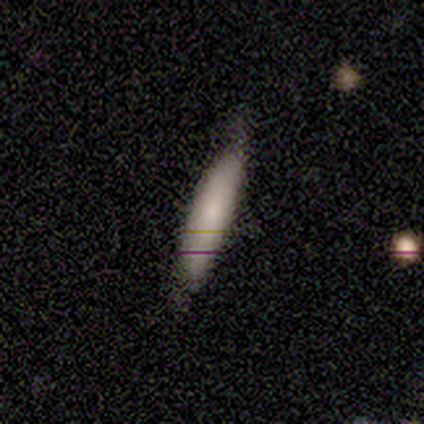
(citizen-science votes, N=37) smooth 84%, featured or disk 16%, star or artifact 0%. Down the decision tree: how rounded — cigar-shaped (81%); merging — none (68%).